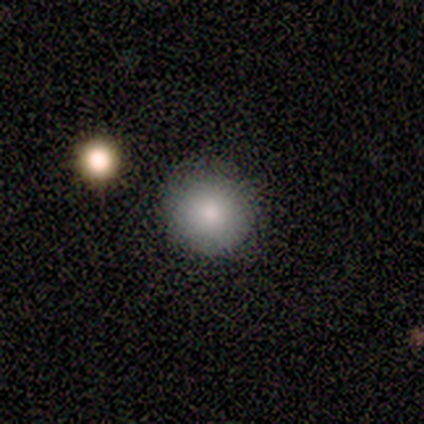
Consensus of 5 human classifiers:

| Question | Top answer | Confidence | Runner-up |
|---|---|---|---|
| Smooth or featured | smooth | 60% | featured or disk (20%) |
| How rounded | round | 100% | — |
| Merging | none | 100% | — |